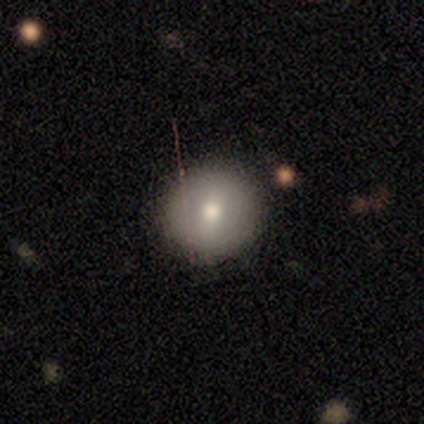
Volunteers were most divided on "smooth or featured": smooth: 59%, featured or disk: 26%, star or artifact: 15%. More confident: how rounded — round (100%); merging — none (94%).